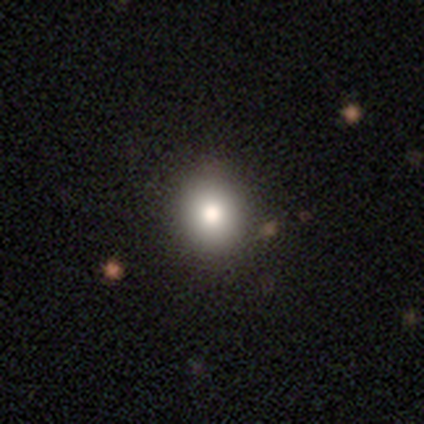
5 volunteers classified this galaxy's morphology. A smooth galaxy with no disk features (100%) that is round (80%).

Vote fractions:
- Smooth or featured? smooth: 100% / featured or disk: 0% / star or artifact: 0%
- How rounded? round: 80% / in between: 20% / cigar-shaped: 0%
- Merging? none: 60% / minor disturbance: 20% / merger: 20% / major disturbance: 0%